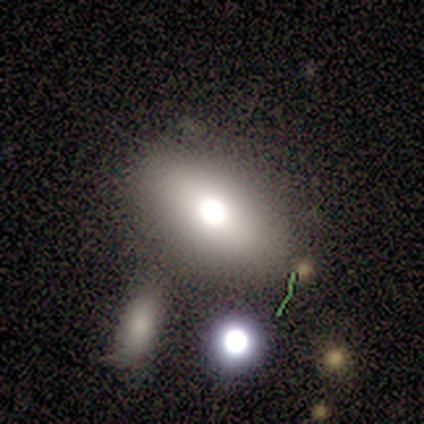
A smooth galaxy with no disk features (43%, tied with featured or disk) that is in between round and cigar-shaped (100%).

Vote fractions:
- Smooth or featured? smooth: 43% (tied) / featured or disk: 43% (tied) / star or artifact: 14%
- How rounded? in between: 100% / round: 0% / cigar-shaped: 0%
- Merging? none: 83% / minor disturbance: 17% / major disturbance: 0% / merger: 0%